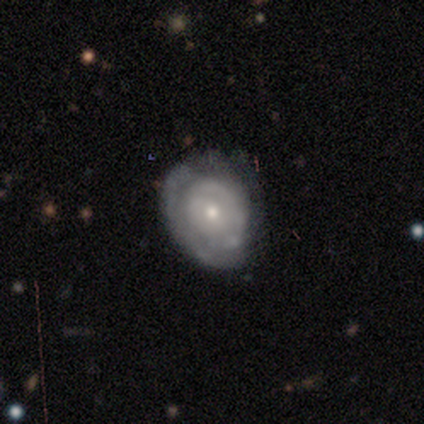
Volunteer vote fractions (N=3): This appears to be a featured or disk galaxy (67%) with no bar (100%), tight (100%) spiral arms (50%, tied with no) and a moderate central bulge (50%, tied with small). Merging: none (50%, tied with minor disturbance).